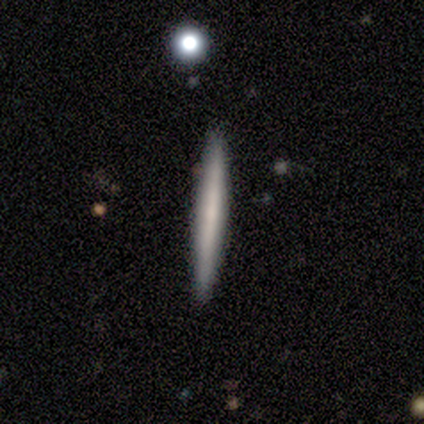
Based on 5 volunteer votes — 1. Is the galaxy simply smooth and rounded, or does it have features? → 80% smooth, 20% featured or disk, 0% star or artifact.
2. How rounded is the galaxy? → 75% cigar-shaped, 25% in between, 0% round.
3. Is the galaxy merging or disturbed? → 100% none, 0% minor disturbance, 0% major disturbance, 0% merger.